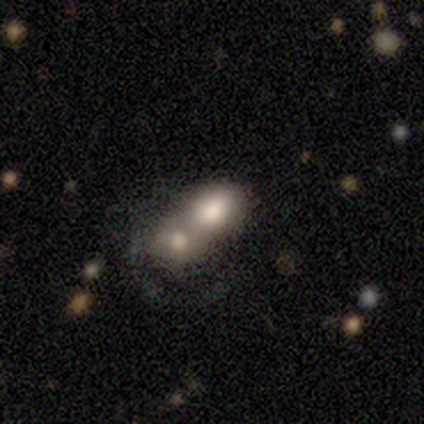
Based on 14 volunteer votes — Smooth or featured?
  - smooth: 71% *
  - featured or disk: 21%
  - star or artifact: 7%
How rounded?
  - in between: 80% *
  - round: 10%
  - cigar-shaped: 10%
Merging?
  - merger: 100% *
  - none: 0%
  - minor disturbance: 0%
  - major disturbance: 0%